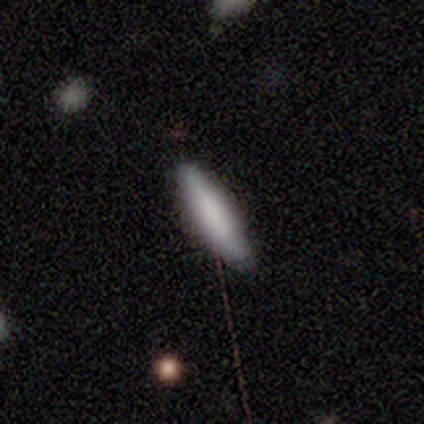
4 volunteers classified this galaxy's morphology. smooth_or_featured: smooth (p=0.75) [alt: featured or disk p=0.25]
how_rounded: cigar-shaped (p=1.00)
merging: none (p=1.00)